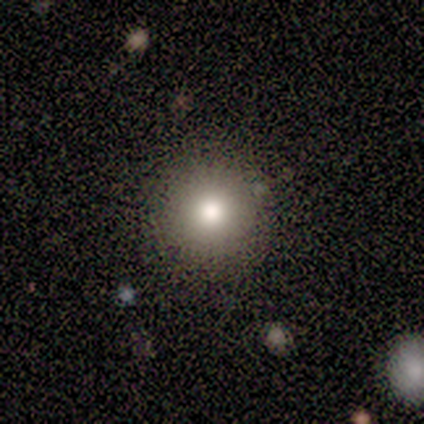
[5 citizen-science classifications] A smooth galaxy with no disk features (80%) that is round (100%).

Vote fractions:
- Smooth or featured? smooth: 80% / featured or disk: 20% / star or artifact: 0%
- How rounded? round: 100% / in between: 0% / cigar-shaped: 0%
- Merging? none: 60% / minor disturbance: 40% / major disturbance: 0% / merger: 0%